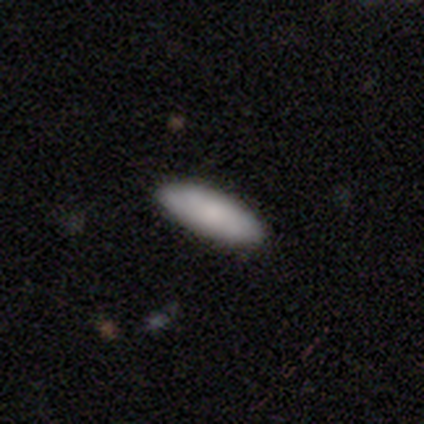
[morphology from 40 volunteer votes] Volunteers were most divided on "how rounded": in between: 56%, cigar-shaped: 44%, round: 0%. More confident: merging — none (97%); smooth or featured — smooth (80%).